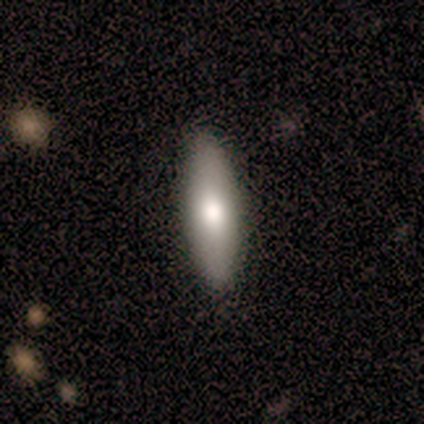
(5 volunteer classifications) Smooth or featured: smooth — 60% (featured or disk — 40%)
How rounded: cigar-shaped — 67% (in between — 33%)
Merging: none — 80% (minor disturbance — 20%)